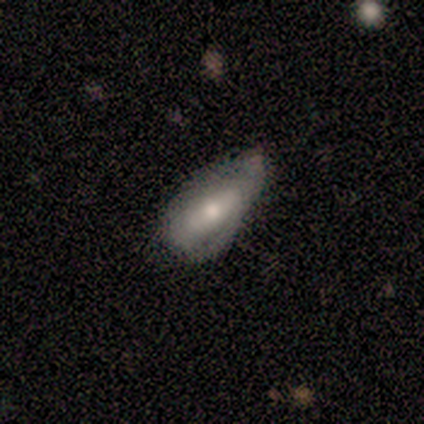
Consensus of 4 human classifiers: smooth-or-featured: smooth: 75% | featured or disk: 25% | star or artifact: 0%
  how-rounded: round: 33% (tied) | in between: 33% (tied) | cigar-shaped: 33% (tied)
  merging: none: 75% | minor disturbance: 25% | major disturbance: 0% | merger: 0%